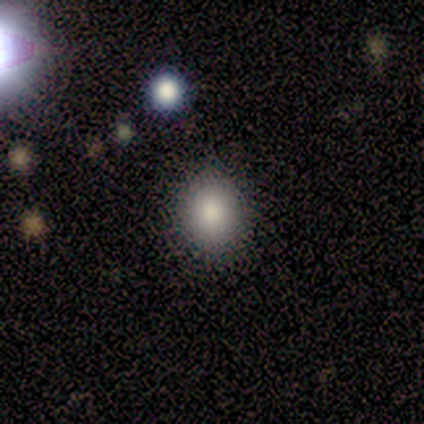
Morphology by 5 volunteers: A smooth galaxy with no disk features (100%) that is round (100%).

Vote fractions:
- Smooth or featured? smooth: 100% / featured or disk: 0% / star or artifact: 0%
- How rounded? round: 100% / in between: 0% / cigar-shaped: 0%
- Merging? none: 100% / minor disturbance: 0% / major disturbance: 0% / merger: 0%